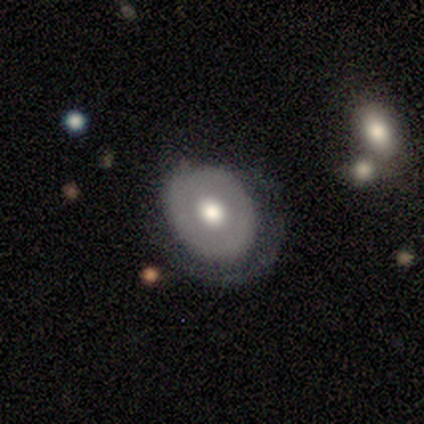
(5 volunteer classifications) Morphology: type=smooth (40%, tied with featured or disk); roundness=in between (100%); merging=none (100%).